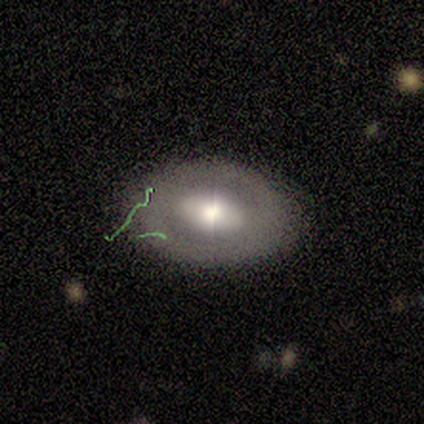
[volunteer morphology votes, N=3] Volunteers were most divided on "bulge size" (2-way tie): large: 50%, moderate: 50%, dominant: 0%, small: 0%, none: 0%. More confident: edge-on disk — no (100%); bar — weak (100%); spiral arms — no (100%); smooth or featured — featured or disk (67%); merging — none (67%).